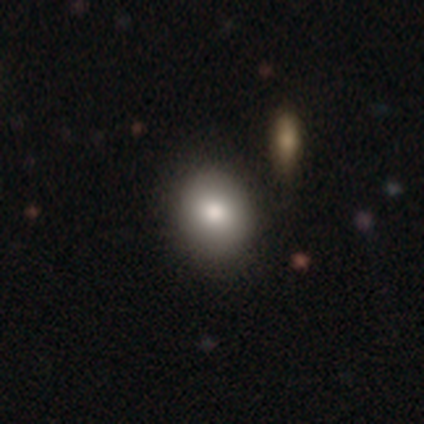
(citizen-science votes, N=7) Smooth or featured? 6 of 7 (86%) said smooth. How rounded? 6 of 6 (100%) said round. Merging? 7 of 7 (100%) said none.